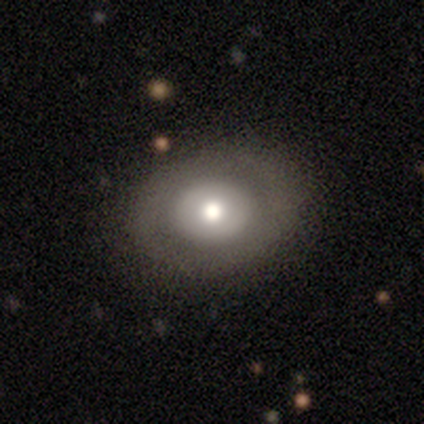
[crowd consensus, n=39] This appears to be a smooth galaxy with no disk features (59%) that is round (61%). Merging: none (82%).